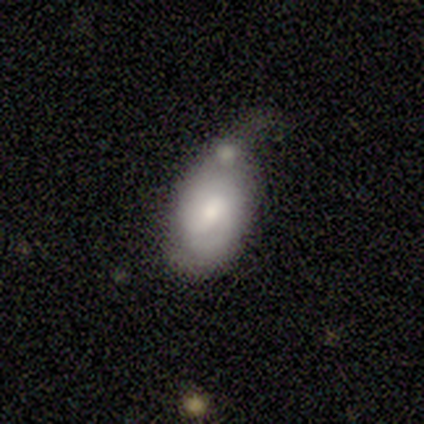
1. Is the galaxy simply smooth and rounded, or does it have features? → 80% smooth, 20% featured or disk, 0% star or artifact.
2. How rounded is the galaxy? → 100% in between, 0% round, 0% cigar-shaped.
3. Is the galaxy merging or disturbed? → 40% minor disturbance (tied), 40% merger (tied), 20% major disturbance, 0% none.